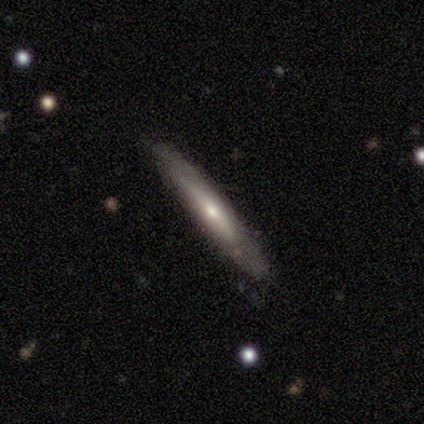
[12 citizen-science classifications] Overall: featured or disk (75%). Edge-on disk: yes (100%). Edge-on bulge: rounded (89%). Merging: none (67%).